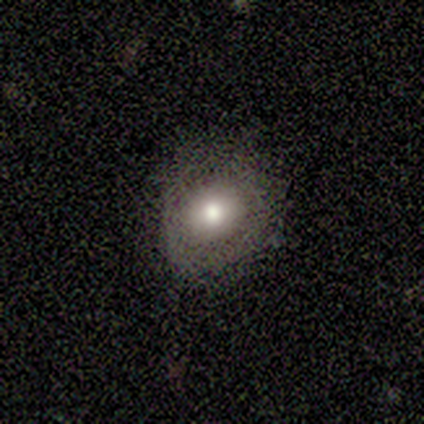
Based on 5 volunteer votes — Smooth or featured: smooth — 100%
How rounded: round — 80% (in between — 20%)
Merging: none — 80% (minor disturbance — 20%)